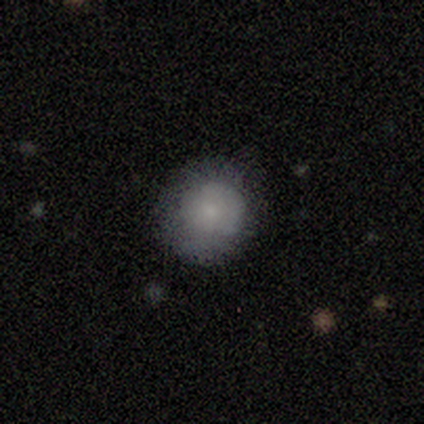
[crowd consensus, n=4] smooth 100%, featured or disk 0%, star or artifact 0%. Down the decision tree: how rounded — round (75%); merging — none (100%).